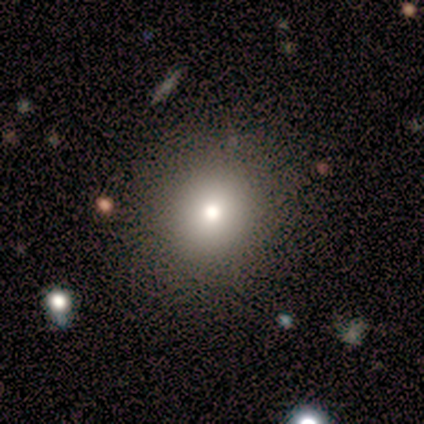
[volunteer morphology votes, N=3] smooth-or-featured: smooth: 33% (tied) | featured or disk: 33% (tied) | star or artifact: 33% (tied)
  how-rounded: round: 100% | in between: 0% | cigar-shaped: 0%
  merging: none: 100% | minor disturbance: 0% | major disturbance: 0% | merger: 0%